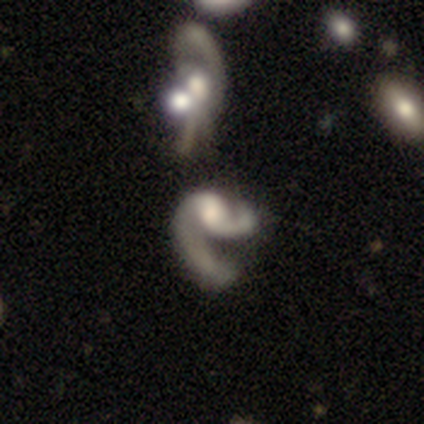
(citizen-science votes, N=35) A featured or disk galaxy (77%) with no bar (56%), 2 (78%) medium (43%, tied with loose) spiral arms (85%) and a moderate central bulge (37%). Merging: major disturbance (48%).